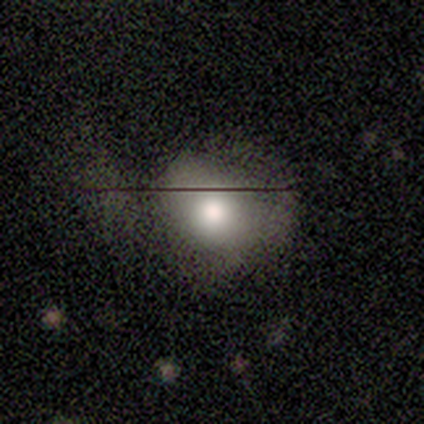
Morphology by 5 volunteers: type=smooth (80%); roundness=round (100%); merging=major disturbance (50%).